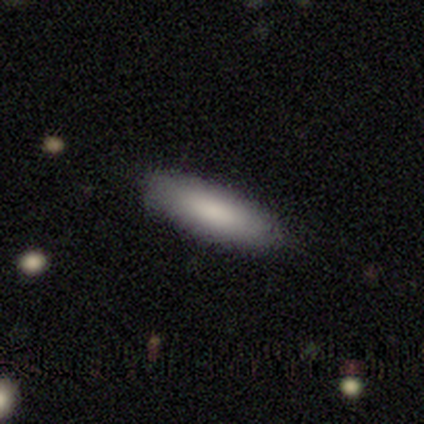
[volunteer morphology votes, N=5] Smooth or featured?
  - smooth: 80% *
  - star or artifact: 20%
  - featured or disk: 0%
How rounded?
  - in between: 75% *
  - cigar-shaped: 25%
  - round: 0%
Merging?
  - none: 100% *
  - minor disturbance: 0%
  - major disturbance: 0%
  - merger: 0%